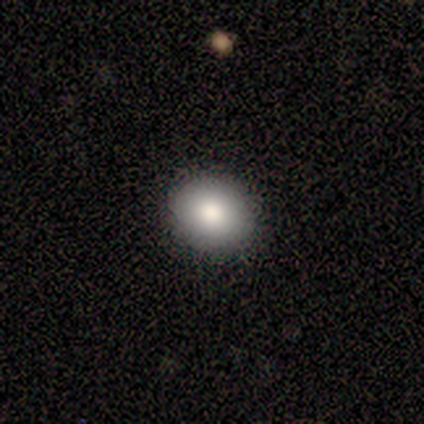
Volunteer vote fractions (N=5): This is clearly a smooth galaxy (80%). How rounded: possibly round (50%, tied with in between). Merging: clearly none (100%).